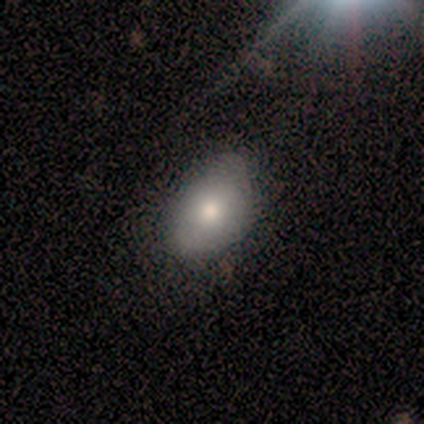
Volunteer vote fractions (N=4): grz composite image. It shows a star or artifact, not a galaxy (50%).